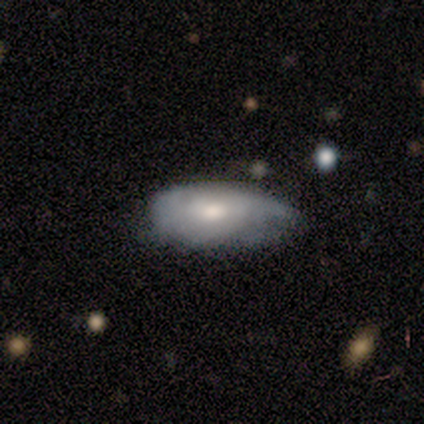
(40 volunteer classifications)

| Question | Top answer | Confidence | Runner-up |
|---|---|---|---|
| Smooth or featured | smooth | 45% | featured or disk (40%) |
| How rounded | in between | 100% | — |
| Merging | none | 50% | minor disturbance (41%) |